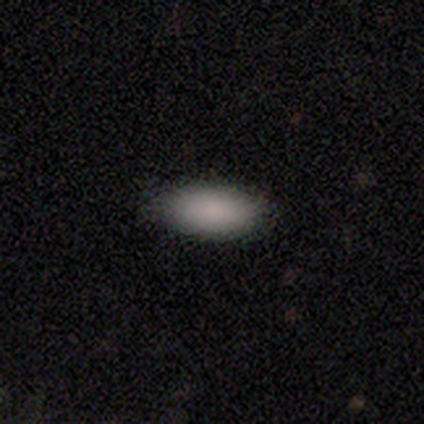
Smooth or featured? smooth (100%)
How rounded? in between (100%)
Merging? none (80%)